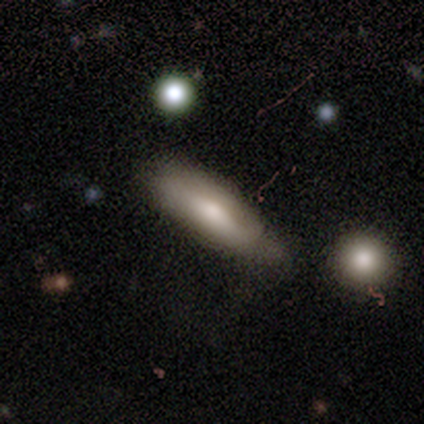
Smooth or featured?
  - smooth: 75% *
  - featured or disk: 25%
  - star or artifact: 0%
How rounded?
  - in between: 100% *
  - round: 0%
  - cigar-shaped: 0%
Merging?
  - minor disturbance: 75% *
  - none: 25%
  - major disturbance: 0%
  - merger: 0%